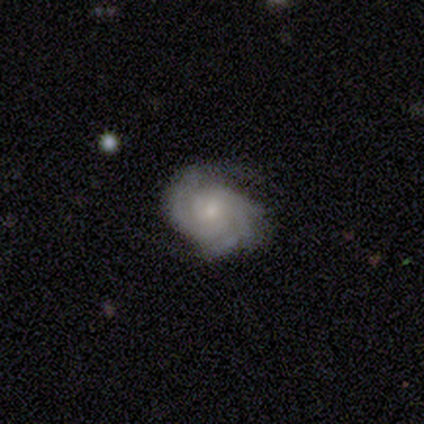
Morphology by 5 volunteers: featured or disk 100%, smooth 0%, star or artifact 0%. Down the decision tree: edge-on disk — no (100%); bar — no (100%); spiral arms — yes (100%); spiral arm count — 2 (60%); spiral winding — tight (60%); bulge size — small (60%); merging — none (60%).